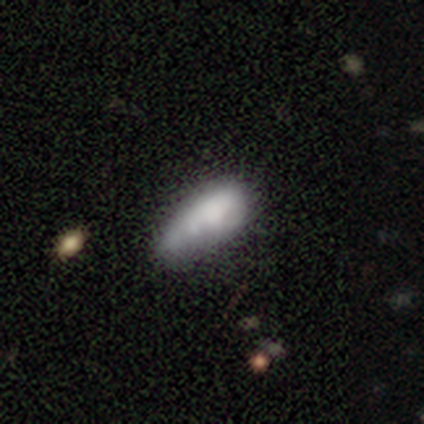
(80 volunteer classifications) Morphology: type=smooth (60%); roundness=in between (85%); merging=minor disturbance (23%).